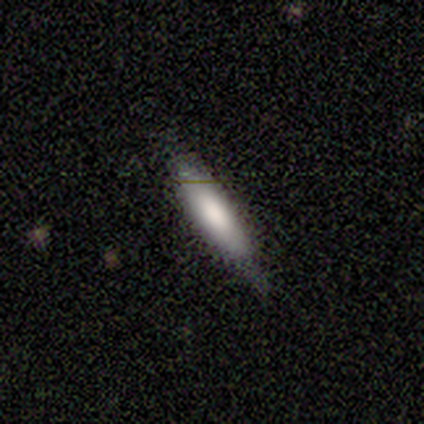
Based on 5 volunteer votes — Smooth or featured? smooth (100%)
How rounded? in between (80%)
Merging? none (80%)